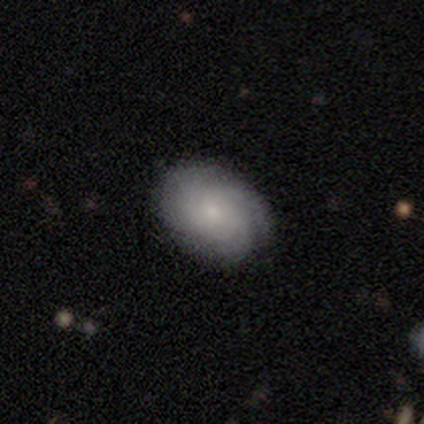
This appears to be a featured or disk galaxy (56%) with no bar (80%), tight (80%) spiral arms (100%) and a moderate central bulge (40%, tied with small). Merging: none (88%).